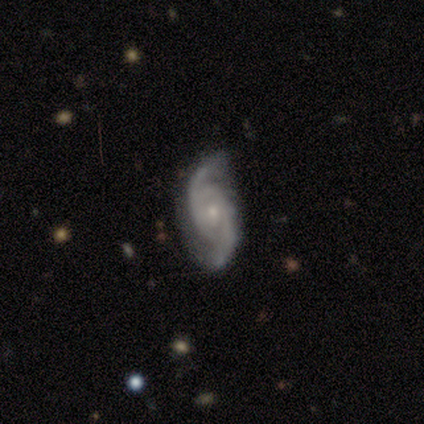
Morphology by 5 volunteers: smooth-or-featured: featured or disk: 100% | smooth: 0% | star or artifact: 0%
  disk-edge-on: no: 100% | yes: 0%
    bar: no: 80% | weak: 20% | strong: 0%
    has-spiral-arms: yes: 100% | no: 0%
      spiral-winding: medium: 60% | tight: 40% | loose: 0%
      spiral-arm-count: 2: 80% | 3: 20% | 1: 0% | 4: 0% | more than 4: 0% | can't tell: 0%
    bulge-size: small: 60% | moderate: 40% | dominant: 0% | large: 0% | none: 0%
  merging: none: 40% (tied) | minor disturbance: 40% (tied) | major disturbance: 20% | merger: 0%